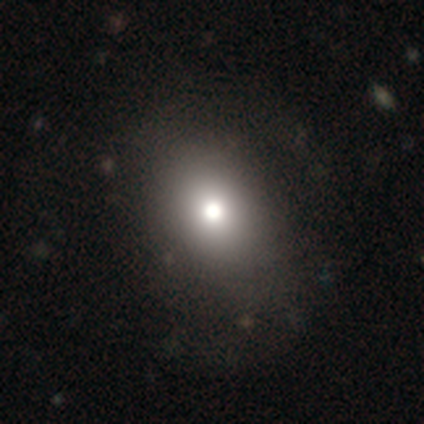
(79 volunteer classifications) smooth 80%, featured or disk 15%, star or artifact 5%. Down the decision tree: how rounded — in between (51%); merging — none (43%).